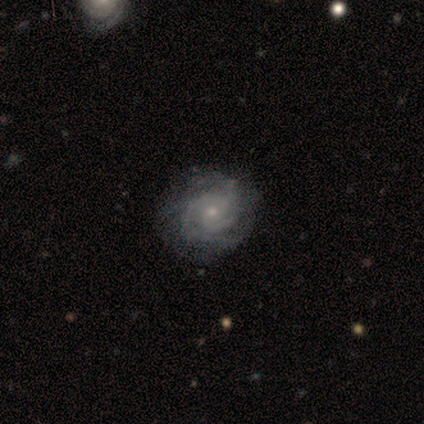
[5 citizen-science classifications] featured or disk 80%, star or artifact 20%, smooth 0%. Down the decision tree: edge-on disk — no (100%); bar — weak (50%, tied with no); spiral arms — yes (100%); spiral arm count — 2 (50%); spiral winding — tight (100%); bulge size — small (75%); merging — none (75%).